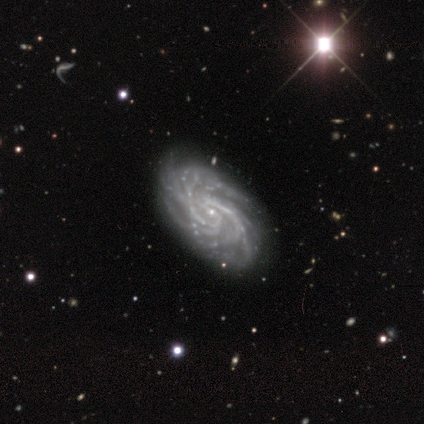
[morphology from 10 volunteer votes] type=featured or disk (100%); edge-on=no (100%); bar=no (60%); spiral arms=yes (100%); winding=tight (80%); arm count=can't tell (40%); bulge=small (80%); merging=none (90%).